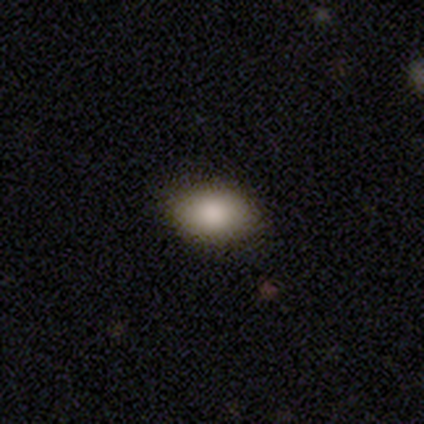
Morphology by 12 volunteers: Smooth or featured? 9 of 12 (75%) said smooth. How rounded? 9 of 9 (100%) said in between. Merging? 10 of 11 (91%) said none.